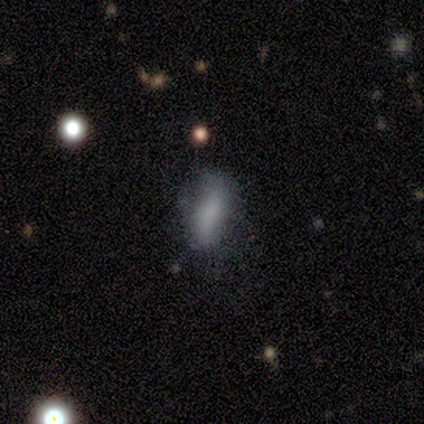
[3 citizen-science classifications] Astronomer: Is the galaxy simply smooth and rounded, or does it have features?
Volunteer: smooth — 100%.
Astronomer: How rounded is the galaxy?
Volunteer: in between — 100%.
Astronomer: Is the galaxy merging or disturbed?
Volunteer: none — 67%.